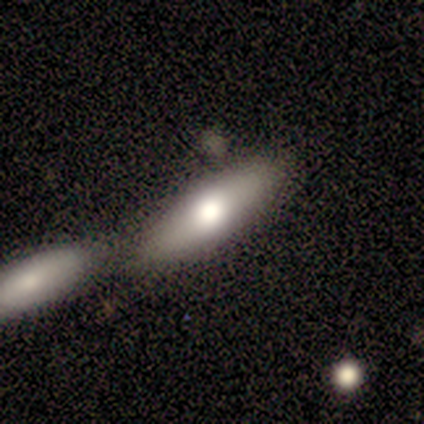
Smooth or featured? smooth (50%)
How rounded? in between (50%, tied with cigar-shaped)
Merging? none (57%)